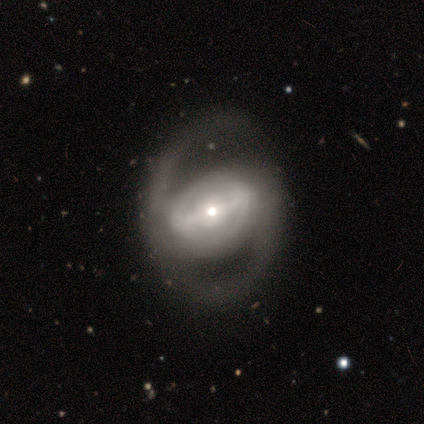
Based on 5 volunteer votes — Smooth or featured?
  - featured or disk: 100% *
  - smooth: 0%
  - star or artifact: 0%
Edge-on disk?
  - no: 100% *
  - yes: 0%
Bar?
  - strong: 80% *
  - weak: 20%
  - no: 0%
Spiral arms?
  - yes: 80% *
  - no: 20%
Spiral winding?
  - medium: 50% *
  - tight: 25%
  - loose: 25%
Spiral arm count?
  - 2: 75% *
  - 1: 25%
  - 3: 0%
  - 4: 0%
  - more than 4: 0%
  - can't tell: 0%
Bulge size?
  - small: 60% *
  - moderate: 40%
  - dominant: 0%
  - large: 0%
  - none: 0%
Merging?
  - none: 80% *
  - major disturbance: 20%
  - minor disturbance: 0%
  - merger: 0%